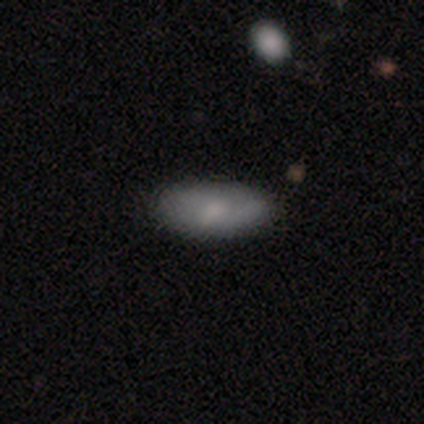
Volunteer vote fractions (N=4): smooth 100%, featured or disk 0%, star or artifact 0%. Down the decision tree: how rounded — in between (100%); merging — none (75%).